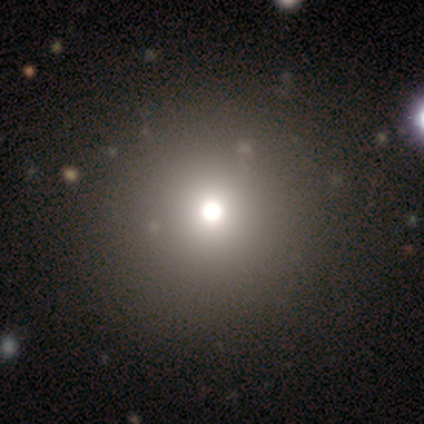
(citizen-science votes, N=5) Smooth or featured? 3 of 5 (60%) said smooth. How rounded? 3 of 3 (100%) said round. Merging? 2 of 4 (50%) said none.